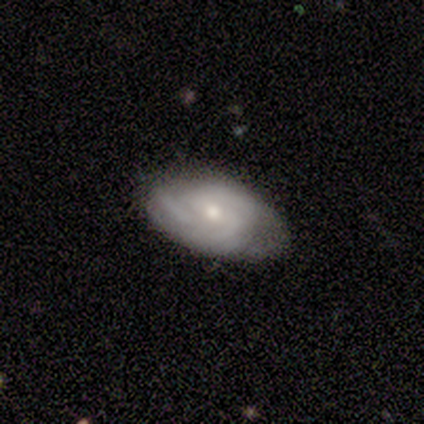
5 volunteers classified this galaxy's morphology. Smooth or featured? 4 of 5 (80%) said featured or disk. Edge-on disk? 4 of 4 (100%) said no. Bar? 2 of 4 (50%, tied with no) said weak. Spiral arms? 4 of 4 (100%) said yes. Spiral winding? 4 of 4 (100%) said tight. Spiral arm count? 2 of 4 (50%) said 3. Bulge size? 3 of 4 (75%) said moderate. Merging? 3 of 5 (60%) said none.